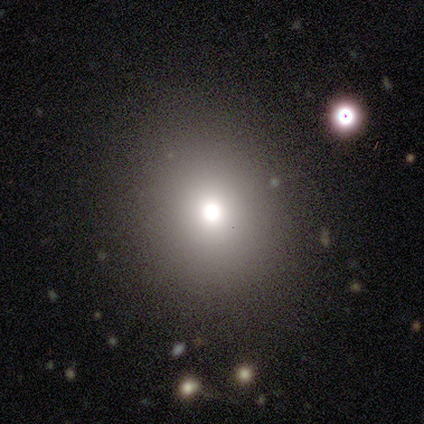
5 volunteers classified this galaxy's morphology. A smooth galaxy with no disk features (80%) that is round (100%). Merging: none (100%).